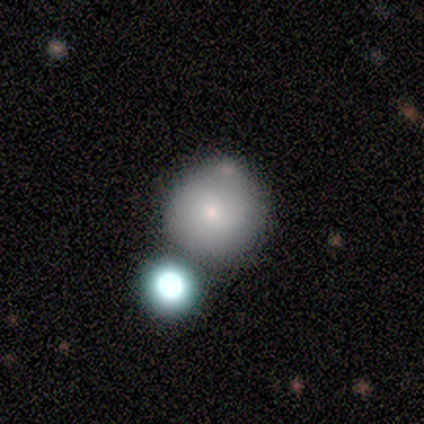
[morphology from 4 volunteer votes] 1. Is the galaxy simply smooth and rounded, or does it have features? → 100% smooth, 0% featured or disk, 0% star or artifact.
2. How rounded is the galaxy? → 100% round, 0% in between, 0% cigar-shaped.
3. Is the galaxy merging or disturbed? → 75% none, 25% merger, 0% minor disturbance, 0% major disturbance.